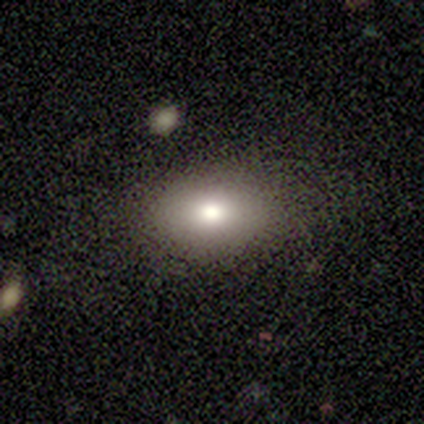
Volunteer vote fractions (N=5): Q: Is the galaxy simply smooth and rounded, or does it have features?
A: smooth — 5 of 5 (100%).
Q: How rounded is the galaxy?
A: in between — 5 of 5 (100%).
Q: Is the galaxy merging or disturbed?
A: none — 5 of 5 (100%).